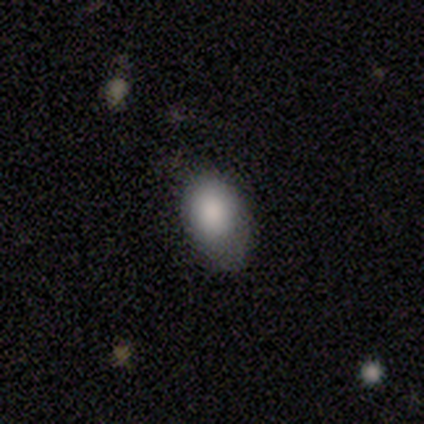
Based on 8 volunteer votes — Volunteers were most divided on "merging": none: 57%, minor disturbance: 43%, major disturbance: 0%, merger: 0%. More confident: how rounded — in between (83%); smooth or featured — smooth (75%).